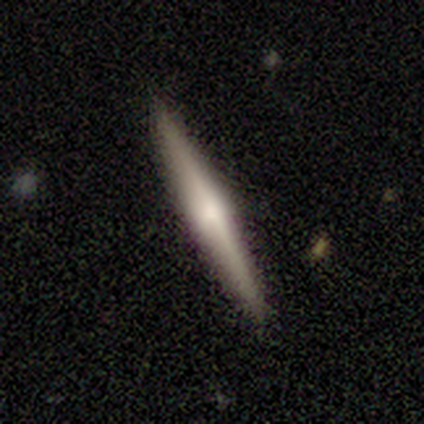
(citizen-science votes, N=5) featured or disk 60%, smooth 40%, star or artifact 0%. Down the decision tree: edge-on disk — yes (100%); edge-on bulge — rounded (67%); merging — none (100%).